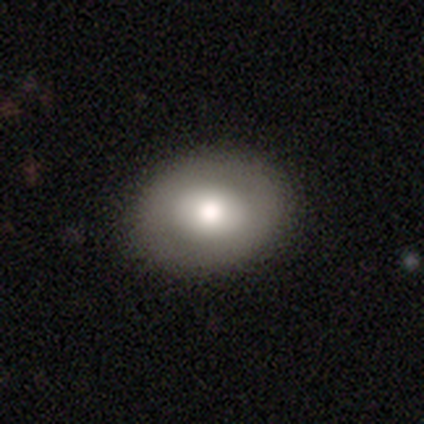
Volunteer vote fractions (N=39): Volunteers were most divided on "how rounded" (2-way tie): round: 46%, in between: 46%, cigar-shaped: 8%. More confident: merging — none (86%); smooth or featured — smooth (67%).